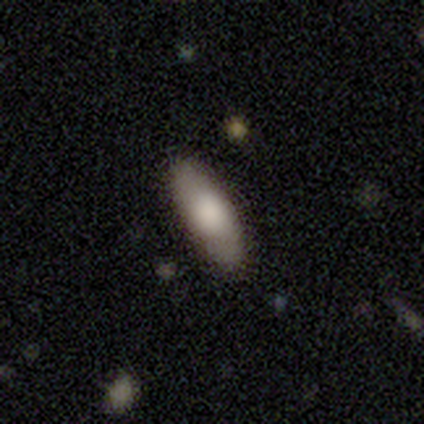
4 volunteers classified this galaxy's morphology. smooth 100%, featured or disk 0%, star or artifact 0%. Down the decision tree: how rounded — in between (75%); merging — none (100%).